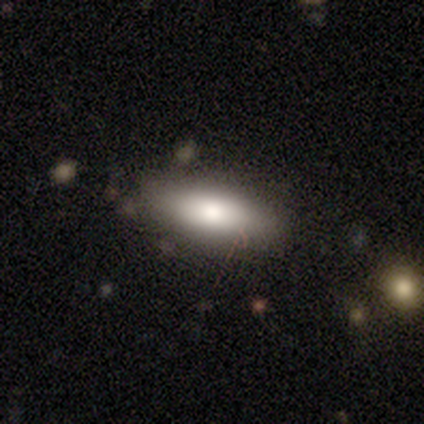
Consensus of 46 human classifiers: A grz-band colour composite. It shows a smooth galaxy with no disk features (78%) that is in between round and cigar-shaped (81%). Merging: none (71%).